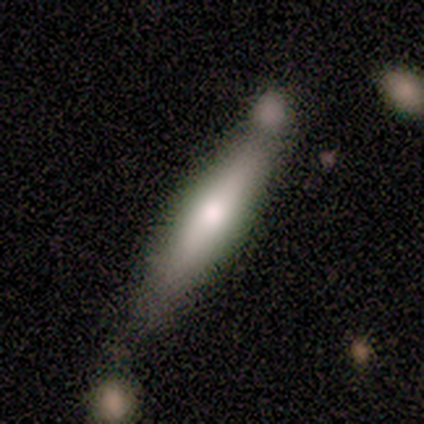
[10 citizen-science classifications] Smooth or featured? 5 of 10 (50%, tied with featured or disk) said smooth. How rounded? 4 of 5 (80%) said cigar-shaped. Merging? 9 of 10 (90%) said none.